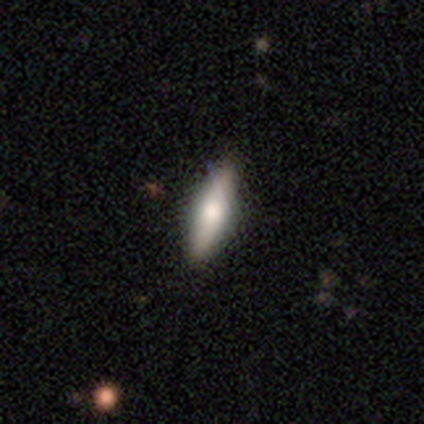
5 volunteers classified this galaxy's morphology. Smooth or featured? smooth (40%, tied with featured or disk)
How rounded? cigar-shaped (100%)
Merging? none (100%)